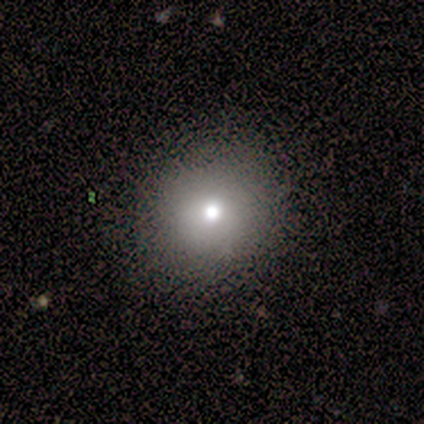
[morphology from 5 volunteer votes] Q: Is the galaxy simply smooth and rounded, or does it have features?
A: smooth — 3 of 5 (60%).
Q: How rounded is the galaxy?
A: round — 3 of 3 (100%).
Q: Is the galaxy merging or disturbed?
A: none — 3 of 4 (75%).